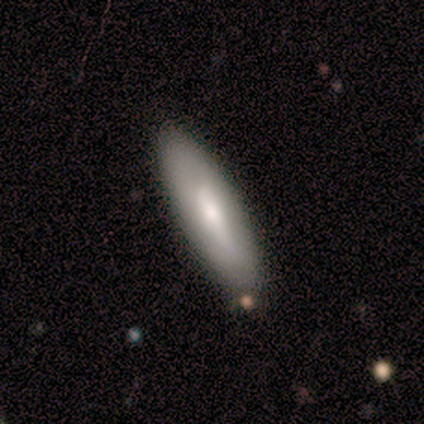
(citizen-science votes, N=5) This is clearly a smooth galaxy (80%). How rounded: possibly in between (50%, tied with cigar-shaped). Merging: likely none (60%).